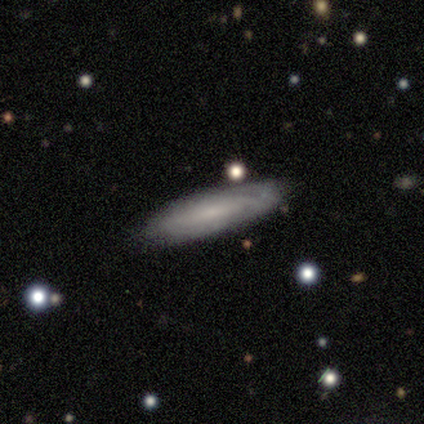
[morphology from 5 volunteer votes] smooth-or-featured: featured or disk: 80% | smooth: 20% | star or artifact: 0%
  disk-edge-on: no: 75% | yes: 25%
    bar: no: 100% | strong: 0% | weak: 0%
    has-spiral-arms: yes: 100% | no: 0%
      spiral-winding: tight: 100% | medium: 0% | loose: 0%
      spiral-arm-count: can't tell: 67% | 1: 33% | 2: 0% | 3: 0% | 4: 0% | more than 4: 0%
    bulge-size: small: 67% | none: 33% | dominant: 0% | large: 0% | moderate: 0%
  merging: none: 60% | merger: 40% | minor disturbance: 0% | major disturbance: 0%